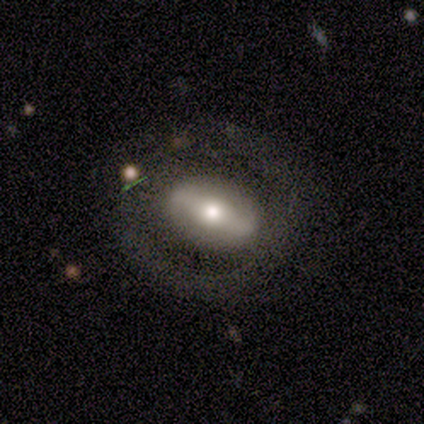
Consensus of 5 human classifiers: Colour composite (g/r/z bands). It shows a featured or disk galaxy (60%) with a strong bar (50%, tied with no), no spiral arms (100%) and a moderate central bulge (100%). Merging: none (60%).